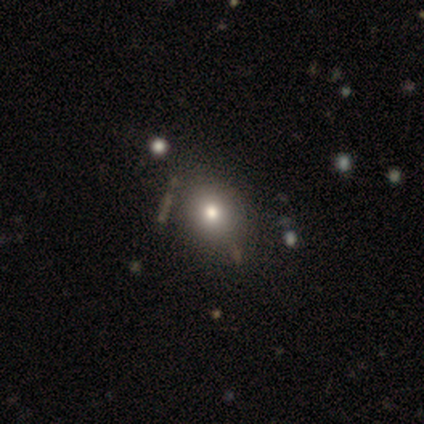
This is clearly a smooth galaxy (86%). How rounded: clearly round (100%). Merging: clearly none (83%).